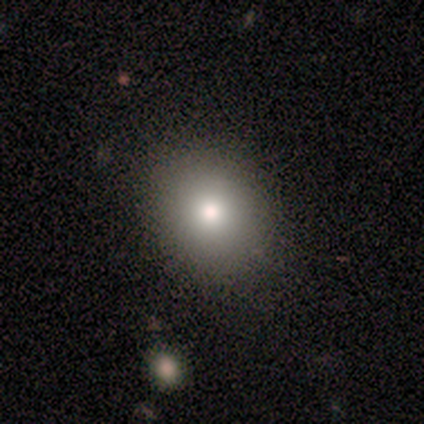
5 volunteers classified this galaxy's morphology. Smooth or featured? 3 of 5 (60%) said smooth. How rounded? 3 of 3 (100%) said round. Merging? 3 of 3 (100%) said none.